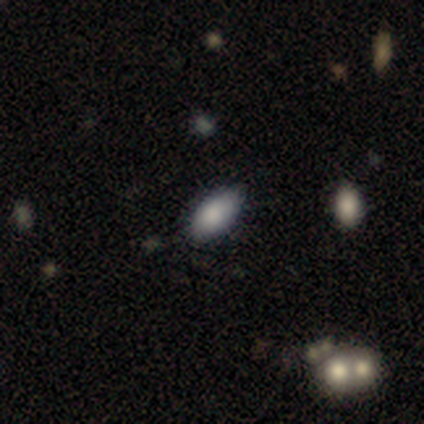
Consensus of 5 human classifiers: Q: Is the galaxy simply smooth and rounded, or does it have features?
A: smooth — 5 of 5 (100%).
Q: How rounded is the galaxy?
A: in between — 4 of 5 (80%).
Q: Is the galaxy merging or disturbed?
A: none — 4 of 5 (80%).